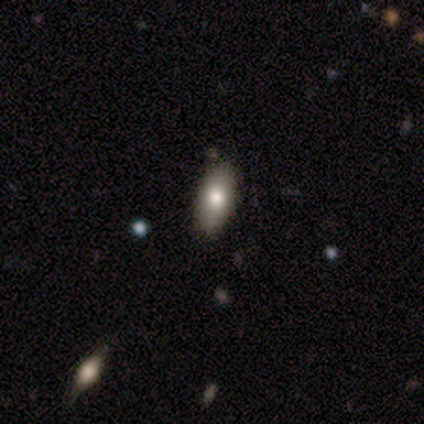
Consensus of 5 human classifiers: Smooth or featured? 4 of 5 (80%) said smooth. How rounded? 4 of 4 (100%) said in between. Merging? 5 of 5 (100%) said none.